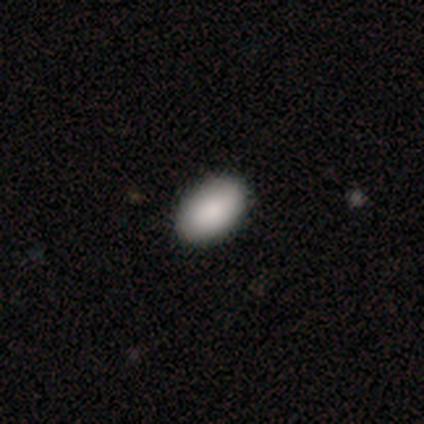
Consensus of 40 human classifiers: This appears to be a smooth galaxy with no disk features (90%) that is in between round and cigar-shaped (92%). Merging: none (65%).